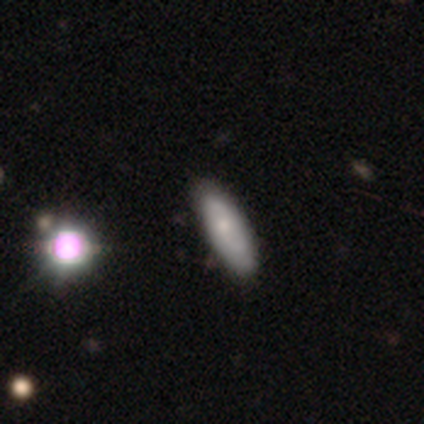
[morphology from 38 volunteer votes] This is possibly a smooth galaxy (58%). How rounded: possibly in between (50%). Merging: clearly none (81%).